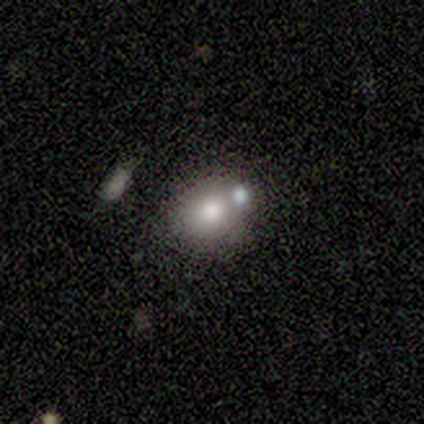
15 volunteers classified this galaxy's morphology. Smooth or featured?
  - smooth: 67% *
  - featured or disk: 20%
  - star or artifact: 13%
How rounded?
  - round: 60% *
  - in between: 40%
  - cigar-shaped: 0%
Merging?
  - none: 69% *
  - merger: 23%
  - minor disturbance: 8%
  - major disturbance: 0%